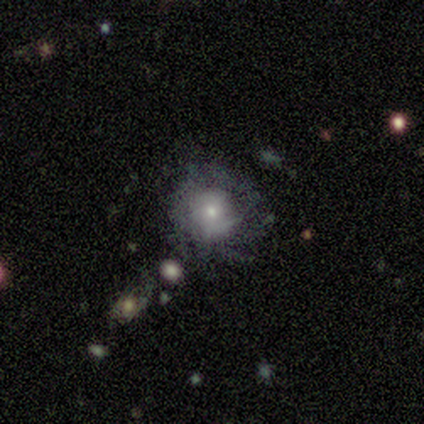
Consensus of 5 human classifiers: featured or disk 60%, smooth 20%, star or artifact 20%. Down the decision tree: edge-on disk — no (100%); bar — no (67%); spiral arms — yes (67%); spiral arm count — 1 (50%, tied with can't tell); spiral winding — tight (50%, tied with loose); bulge size — small (100%); merging — none (100%).